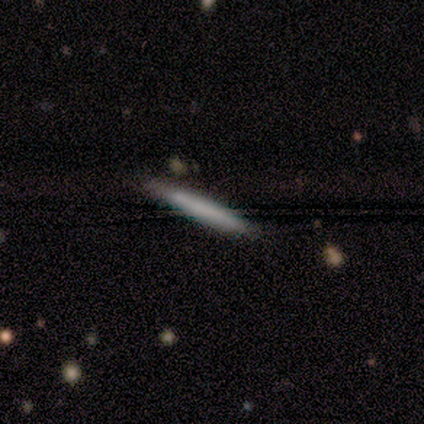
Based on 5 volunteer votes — Overall: featured or disk (60%; smooth 40%). Edge-on disk: yes (100%). Edge-on bulge: none (100%). Merging: none (100%).